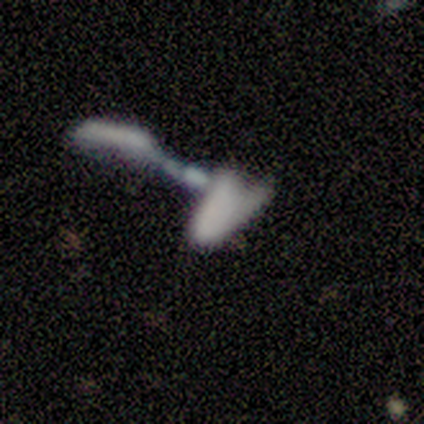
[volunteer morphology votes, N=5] Volunteers were most divided on "smooth or featured": star or artifact: 60%, smooth: 20%, featured or disk: 20%.